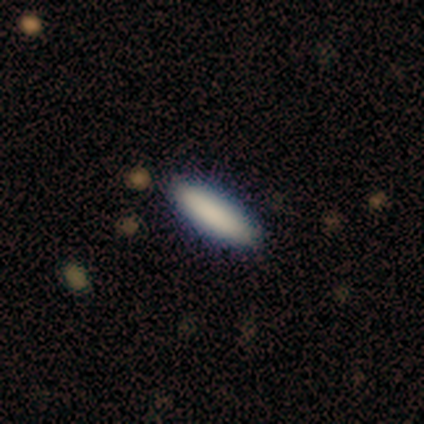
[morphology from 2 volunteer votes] smooth 100%, featured or disk 0%, star or artifact 0%. Down the decision tree: how rounded — in between (100%); merging — none (100%).